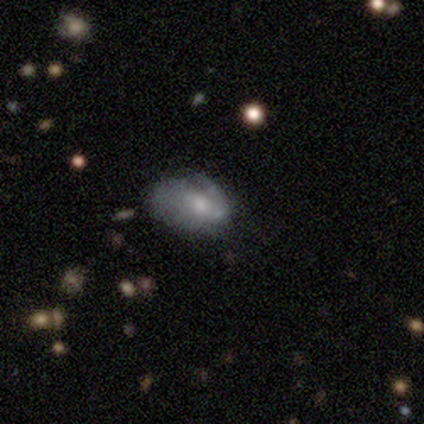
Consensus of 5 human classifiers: smooth-or-featured: featured or disk: 80% | smooth: 20% | star or artifact: 0%
  disk-edge-on: no: 75% | yes: 25%
    bar: no: 67% | weak: 33% | strong: 0%
    has-spiral-arms: yes: 67% | no: 33%
      spiral-winding: tight: 50% (tied) | medium: 50% (tied) | loose: 0%
      spiral-arm-count: 2: 50% (tied) | can't tell: 50% (tied) | 1: 0% | 3: 0% | 4: 0% | more than 4: 0%
    bulge-size: moderate: 67% | small: 33% | dominant: 0% | large: 0% | none: 0%
  merging: minor disturbance: 40% (tied) | major disturbance: 40% (tied) | none: 20% | merger: 0%